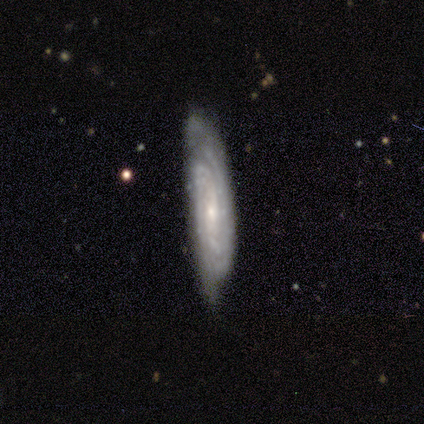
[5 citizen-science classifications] Volunteers were most divided on "bar" (2-way tie): weak: 50%, no: 50%, strong: 0%. More confident: smooth or featured — featured or disk (100%); spiral arms — yes (100%); spiral winding — tight (100%); edge-on disk — no (80%); merging — minor disturbance (80%); spiral arm count — can't tell (75%); bulge size — small (75%).